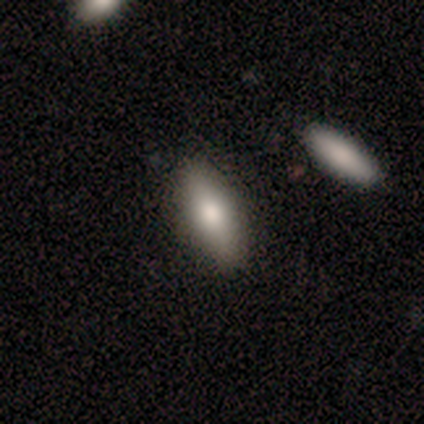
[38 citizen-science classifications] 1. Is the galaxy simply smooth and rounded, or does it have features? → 74% smooth, 18% featured or disk, 8% star or artifact.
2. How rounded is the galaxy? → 68% in between, 32% cigar-shaped, 0% round.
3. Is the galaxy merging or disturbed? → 86% none, 6% minor disturbance, 6% major disturbance, 3% merger.